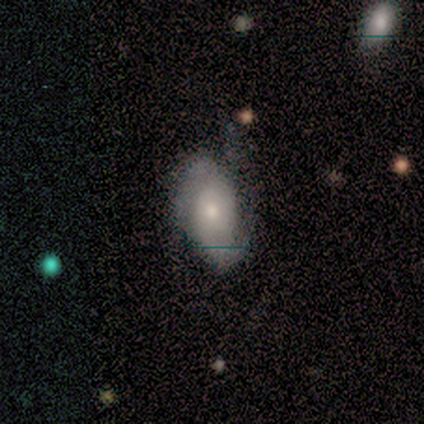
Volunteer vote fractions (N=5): smooth-or-featured: smooth: 80% | featured or disk: 20% | star or artifact: 0%
  how-rounded: in between: 100% | round: 0% | cigar-shaped: 0%
  merging: none: 60% | minor disturbance: 20% | major disturbance: 20% | merger: 0%